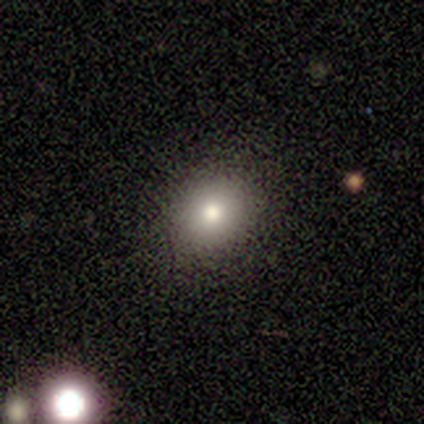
Volunteers were most divided on "how rounded": in between: 75%, round: 25%, cigar-shaped: 0%. More confident: merging — none (100%); smooth or featured — smooth (80%).